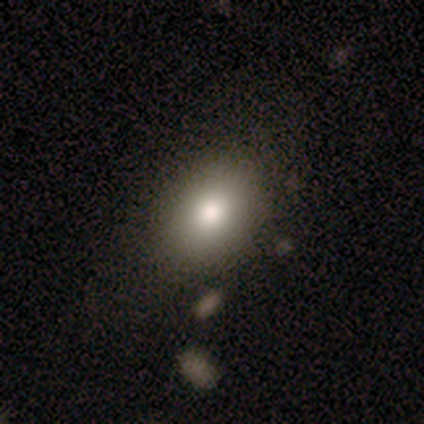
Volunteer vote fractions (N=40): A smooth galaxy with no disk features (85%) that is in between round and cigar-shaped (76%). Merging: none (49%).